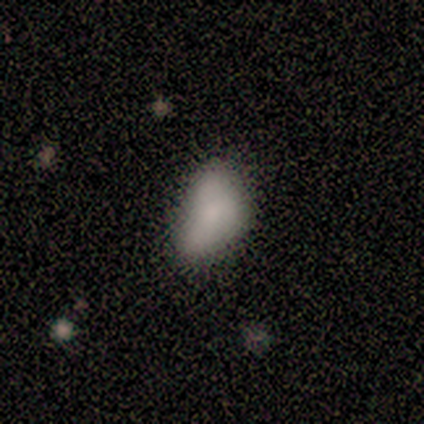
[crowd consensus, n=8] Q: Smooth or featured?
A: smooth (62%); runner-up: star or artifact (25%)
Q: How rounded?
A: in between (100%)
Q: Merging?
A: none (33%); tied with: minor disturbance (33%)